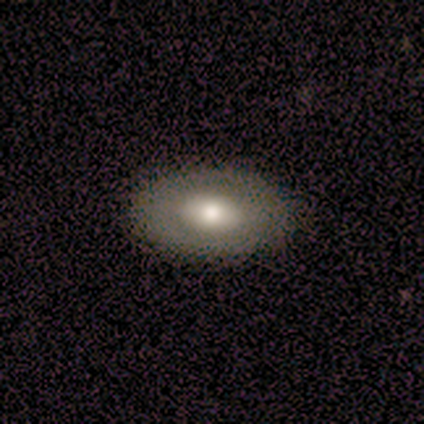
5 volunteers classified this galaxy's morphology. Smooth or featured? 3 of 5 (60%) said smooth. How rounded? 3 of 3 (100%) said in between. Merging? 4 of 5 (80%) said none.